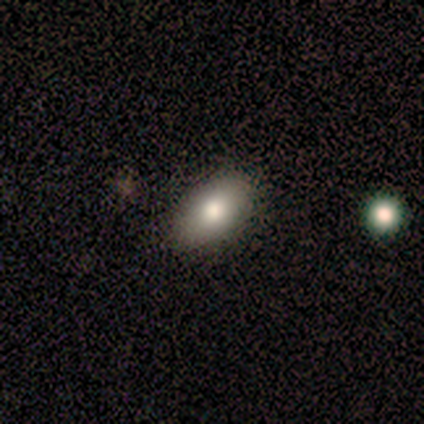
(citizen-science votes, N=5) A smooth galaxy with no disk features (60%) that is in between round and cigar-shaped (100%).

Vote fractions:
- Smooth or featured? smooth: 60% / featured or disk: 40% / star or artifact: 0%
- How rounded? in between: 100% / round: 0% / cigar-shaped: 0%
- Merging? none: 80% / minor disturbance: 20% / major disturbance: 0% / merger: 0%